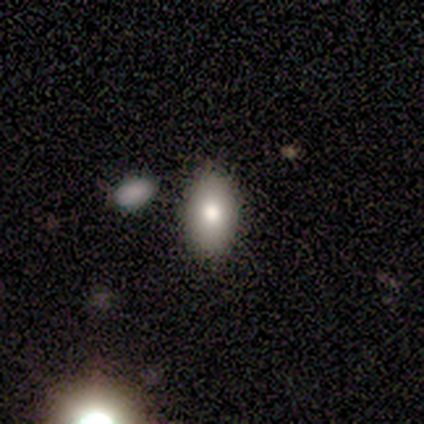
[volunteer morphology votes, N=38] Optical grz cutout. It shows a smooth galaxy with no disk features (82%) that is in between round and cigar-shaped (97%). Merging: none (88%).